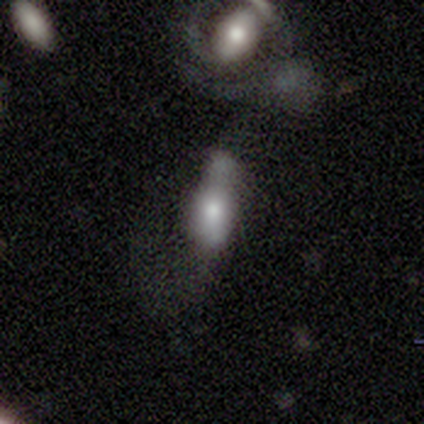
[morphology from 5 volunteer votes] A smooth galaxy with no disk features (80%) that is in between round and cigar-shaped (50%, tied with cigar-shaped). Merging: none (25%, tied with minor disturbance, major disturbance and merger).